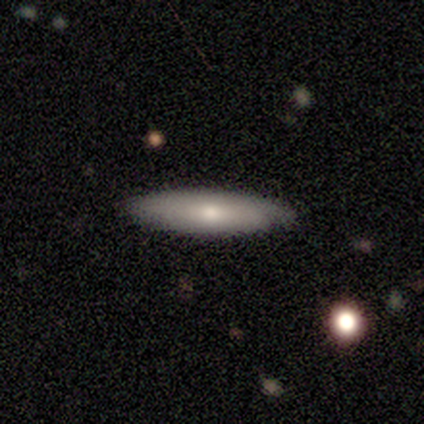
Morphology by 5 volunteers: Smooth or featured? smooth (60%)
How rounded? cigar-shaped (100%)
Merging? none (80%)